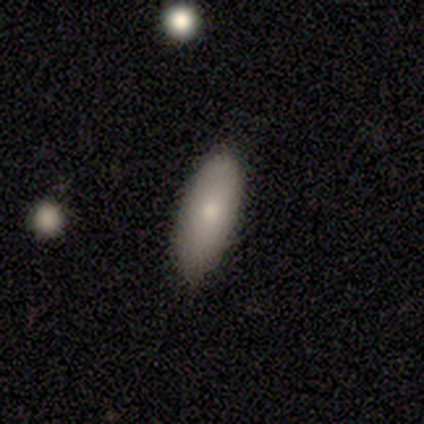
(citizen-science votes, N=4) smooth-or-featured: smooth: 100% | featured or disk: 0% | star or artifact: 0%
  how-rounded: in between: 50% (tied) | cigar-shaped: 50% (tied) | round: 0%
  merging: none: 75% | major disturbance: 25% | minor disturbance: 0% | merger: 0%